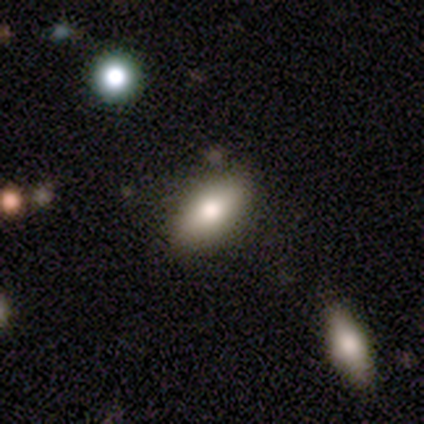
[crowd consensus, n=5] Smooth or featured? smooth (40%, tied with featured or disk)
How rounded? in between (100%)
Merging? none (100%)